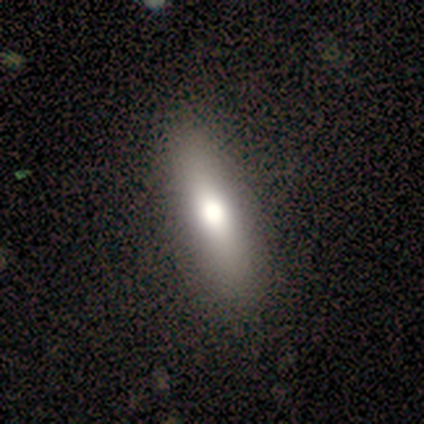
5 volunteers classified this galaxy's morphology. Smooth or featured? smooth (80%)
How rounded? cigar-shaped (75%)
Merging? none (80%)